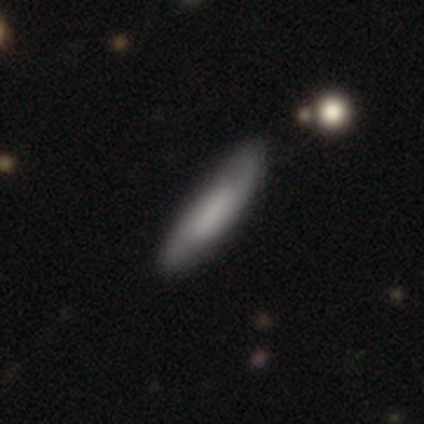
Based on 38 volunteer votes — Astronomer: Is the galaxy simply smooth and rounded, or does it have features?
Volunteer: smooth — 68%.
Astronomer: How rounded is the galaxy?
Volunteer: cigar-shaped — 96%.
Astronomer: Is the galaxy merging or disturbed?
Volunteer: none — 81%.